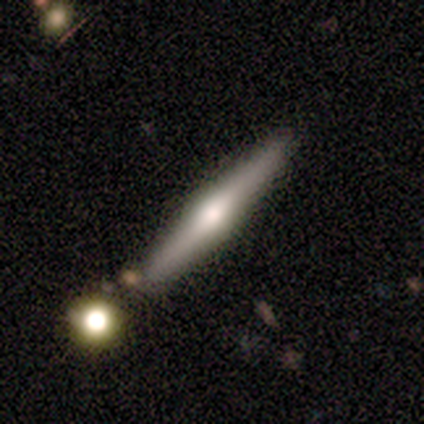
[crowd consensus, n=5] This is clearly a featured or disk galaxy (80%). It is clearly viewed edge-on (100%). Edge-on bulge: possibly rounded (50%). Merging: clearly none (80%).